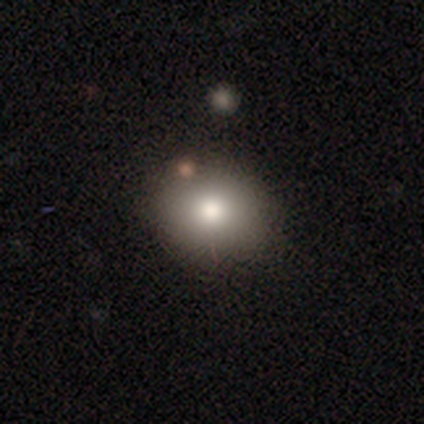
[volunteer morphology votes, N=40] A smooth galaxy with no disk features (88%) that is round (57%). Merging: none (47%).